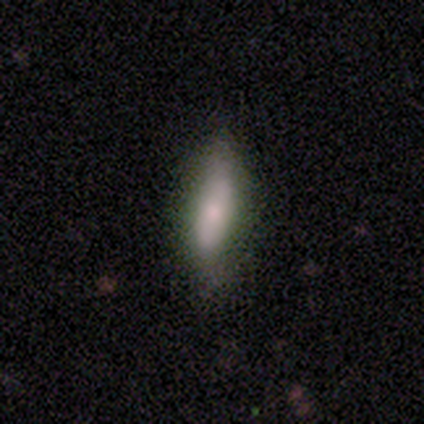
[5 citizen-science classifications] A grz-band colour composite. It shows a smooth galaxy with no disk features (60%) that is cigar-shaped (67%). Merging: none (100%).